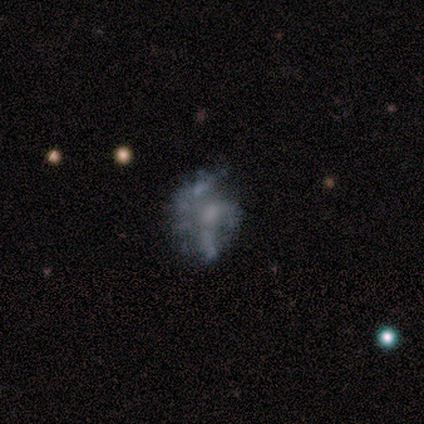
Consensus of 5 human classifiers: Morphology: type=featured or disk (60%); edge-on=no (100%); bar=no (100%); spiral arms=no (67%); bulge=none (67%); merging=none (40%, tied with minor disturbance).